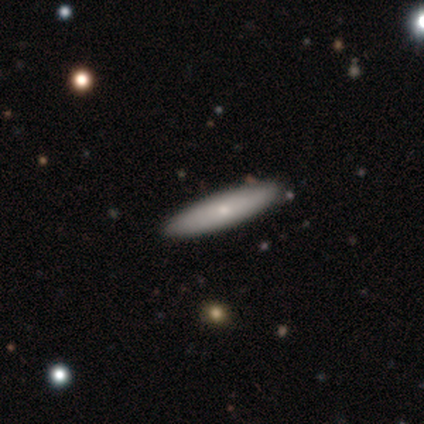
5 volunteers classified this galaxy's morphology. smooth_or_featured: smooth (p=0.80) [alt: featured or disk p=0.20]
how_rounded: cigar-shaped (p=1.00)
merging: none (p=0.60) [alt: minor disturbance p=0.40]